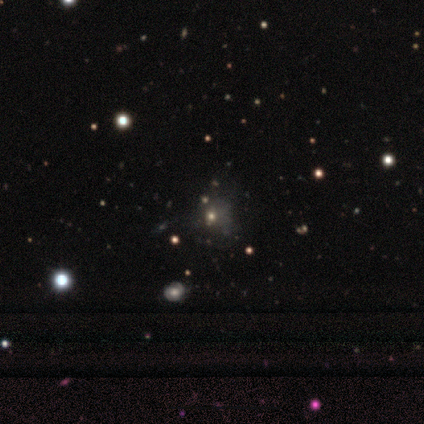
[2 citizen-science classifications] Smooth or featured? 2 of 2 (100%) said featured or disk. Edge-on disk? 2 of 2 (100%) said no. Bar? 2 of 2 (100%) said no. Spiral arms? 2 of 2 (100%) said no. Bulge size? 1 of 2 (50%, tied with small) said moderate. Merging? 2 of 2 (100%) said major disturbance.